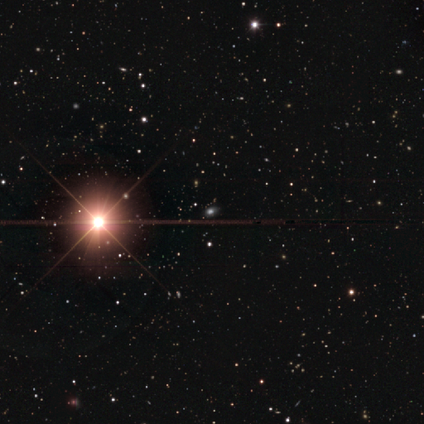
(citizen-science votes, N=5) smooth_or_featured: star or artifact (p=0.80) [alt: featured or disk p=0.20]